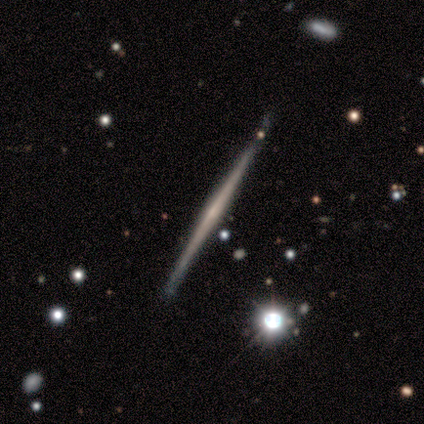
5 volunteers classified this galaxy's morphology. Smooth or featured? featured or disk (60%)
Edge-on disk? yes (100%)
Edge-on bulge? none (67%)
Merging? none (80%)